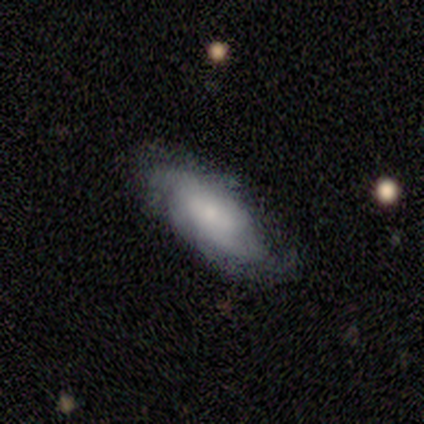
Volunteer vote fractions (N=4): Smooth or featured? smooth (75%)
How rounded? in between (100%)
Merging? none (75%)